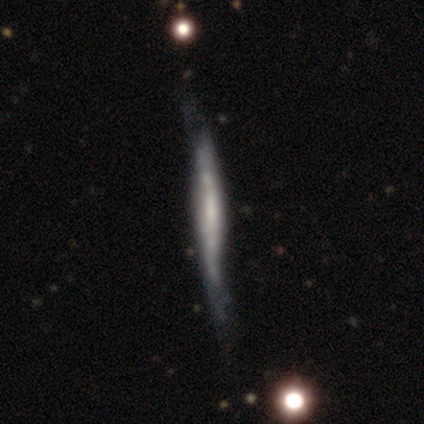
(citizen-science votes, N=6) smooth-or-featured: featured or disk: 83% | star or artifact: 17% | smooth: 0%
  disk-edge-on: yes: 100% | no: 0%
    edge-on-bulge: none: 40% (tied) | rounded: 40% (tied) | boxy: 20%
  merging: none: 60% | minor disturbance: 40% | major disturbance: 0% | merger: 0%